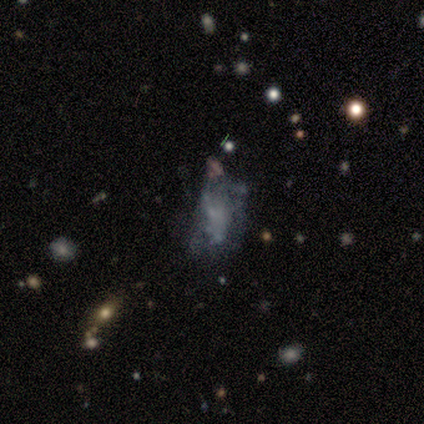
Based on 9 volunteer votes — Smooth or featured? featured or disk (67%)
Edge-on disk? no (100%)
Bar? no (100%)
Spiral arms? no (100%)
Bulge size? none (83%)
Merging? major disturbance (50%)